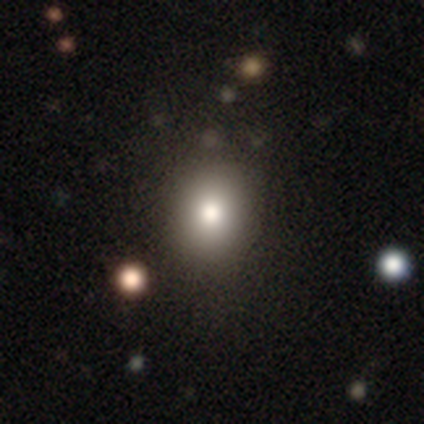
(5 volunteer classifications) A smooth galaxy with no disk features (80%) that is round (75%). Merging: none (80%).